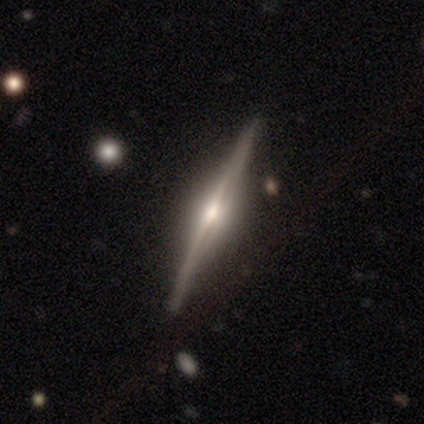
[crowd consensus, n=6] Volunteers were most divided on "smooth or featured": featured or disk: 67%, smooth: 17%, star or artifact: 17%. More confident: edge-on disk — yes (100%); edge-on bulge — rounded (100%); merging — none (80%).